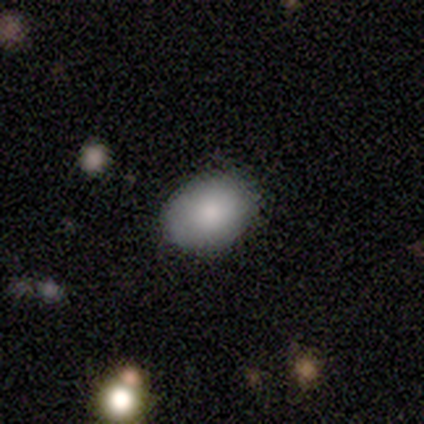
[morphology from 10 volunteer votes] Smooth or featured? smooth (100%)
How rounded? in between (90%)
Merging? none (70%)